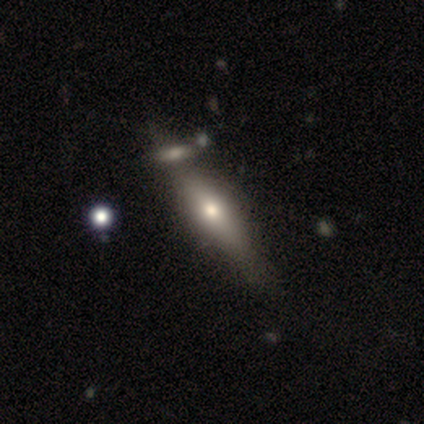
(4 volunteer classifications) featured or disk 100%, smooth 0%, star or artifact 0%. Down the decision tree: edge-on disk — yes (100%); edge-on bulge — rounded (100%); merging — none (75%).